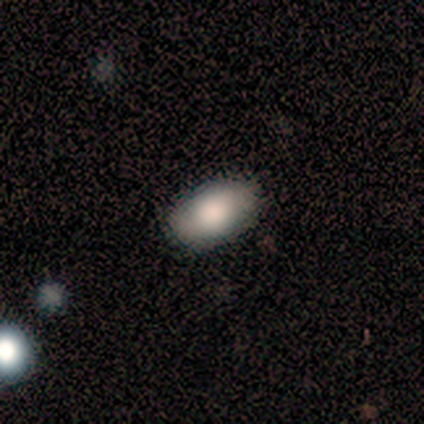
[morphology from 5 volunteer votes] Overall: smooth (80%). How rounded: in between (75%). Merging: none (100%).